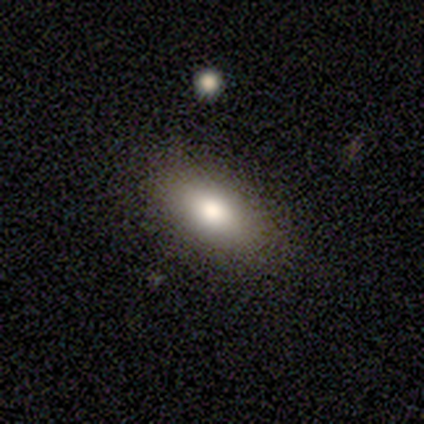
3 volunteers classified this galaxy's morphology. smooth-or-featured: smooth: 100% | featured or disk: 0% | star or artifact: 0%
  how-rounded: in between: 100% | round: 0% | cigar-shaped: 0%
  merging: none: 100% | minor disturbance: 0% | major disturbance: 0% | merger: 0%